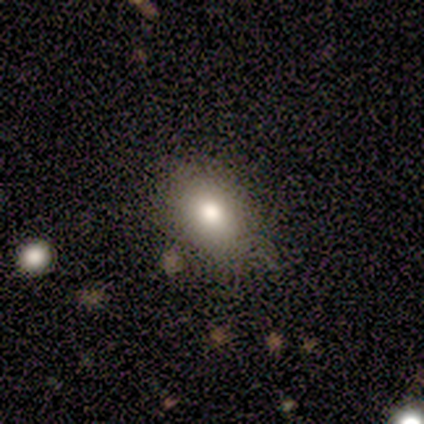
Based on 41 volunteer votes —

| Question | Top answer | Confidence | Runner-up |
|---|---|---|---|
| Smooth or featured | smooth | 76% | featured or disk (17%) |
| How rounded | in between | 87% | round (10%) |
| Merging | none | 84% | minor disturbance (5%) |